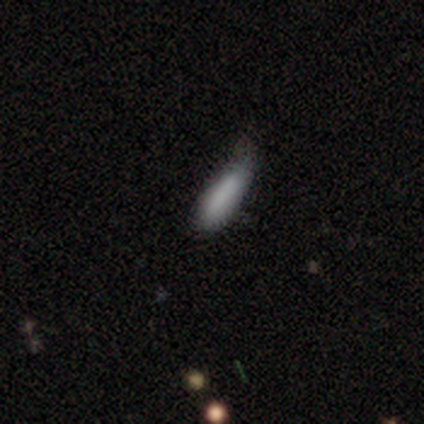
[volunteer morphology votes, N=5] This appears to be a smooth galaxy with no disk features (80%) that is in between round and cigar-shaped (50%, tied with cigar-shaped). Merging: minor disturbance (80%).